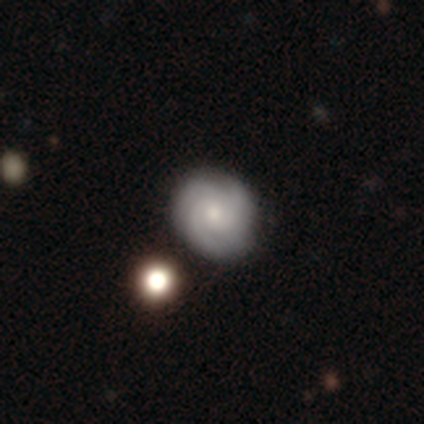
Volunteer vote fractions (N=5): Smooth or featured? featured or disk (80%)
Edge-on disk? no (100%)
Bar? no (100%)
Spiral arms? yes (100%)
Spiral winding? tight (75%)
Spiral arm count? 3 (100%)
Bulge size? moderate (50%, tied with small)
Merging? none (100%)